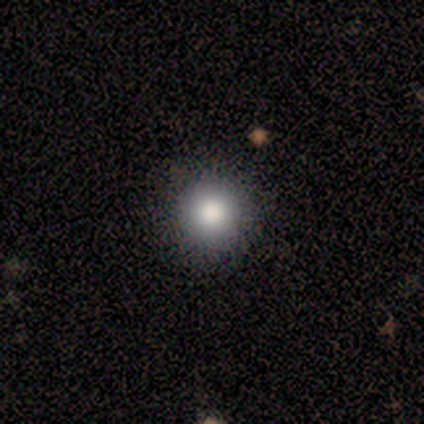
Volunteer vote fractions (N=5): Smooth or featured? 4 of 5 (80%) said smooth. How rounded? 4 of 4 (100%) said round. Merging? 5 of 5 (100%) said none.